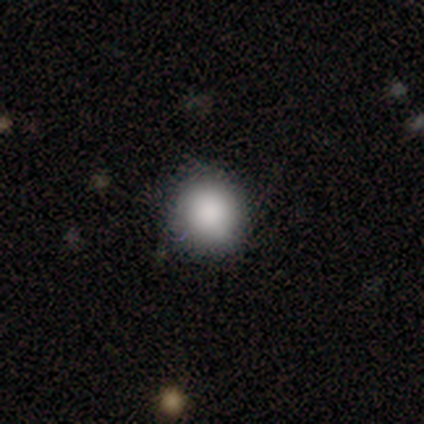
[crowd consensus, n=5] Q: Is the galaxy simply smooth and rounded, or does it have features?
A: smooth — 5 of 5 (100%).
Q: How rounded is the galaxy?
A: round — 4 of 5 (80%).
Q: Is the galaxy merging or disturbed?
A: none — 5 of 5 (100%).